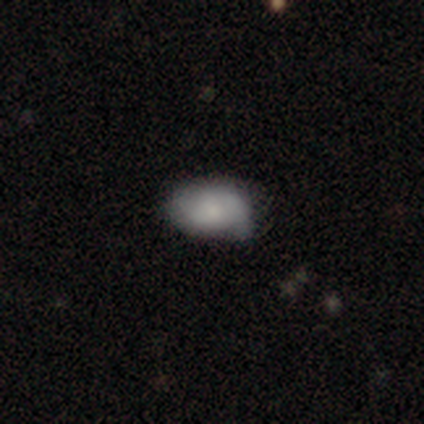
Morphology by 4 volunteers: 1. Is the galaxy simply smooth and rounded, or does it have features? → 100% smooth, 0% featured or disk, 0% star or artifact.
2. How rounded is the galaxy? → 100% in between, 0% round, 0% cigar-shaped.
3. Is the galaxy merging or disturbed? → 75% none, 25% minor disturbance, 0% major disturbance, 0% merger.